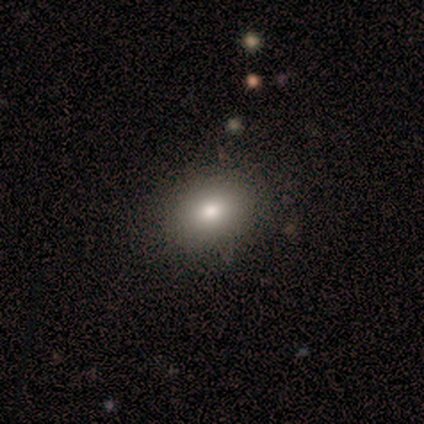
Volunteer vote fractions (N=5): smooth-or-featured: smooth: 100% | featured or disk: 0% | star or artifact: 0%
  how-rounded: in between: 60% | round: 40% | cigar-shaped: 0%
  merging: none: 80% | minor disturbance: 20% | major disturbance: 0% | merger: 0%